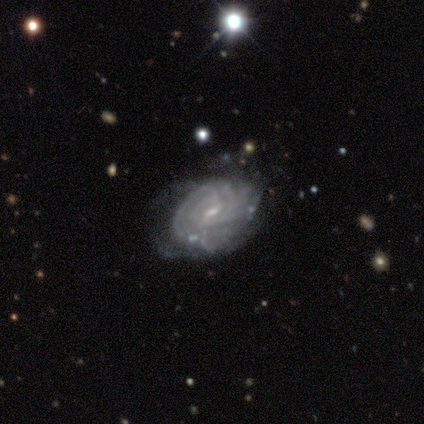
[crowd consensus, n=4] This is clearly a featured or disk galaxy (100%). It is clearly not viewed edge-on (100%). Bar: possibly weak (50%, tied with no). Spiral arm pattern: clearly yes (100%). Spiral arm count: likely can't tell (75%). Spiral winding: clearly tight (100%). Central bulge: likely small (75%). Merging: possibly minor disturbance (50%).